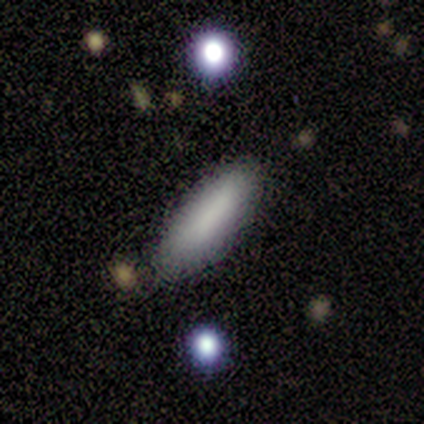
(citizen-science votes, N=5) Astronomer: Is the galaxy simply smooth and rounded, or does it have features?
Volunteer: smooth — 60% (runner-up: featured or disk, 40%).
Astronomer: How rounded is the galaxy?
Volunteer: cigar-shaped — 67%.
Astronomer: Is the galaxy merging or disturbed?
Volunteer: none — 60% (runner-up: minor disturbance, 40%).